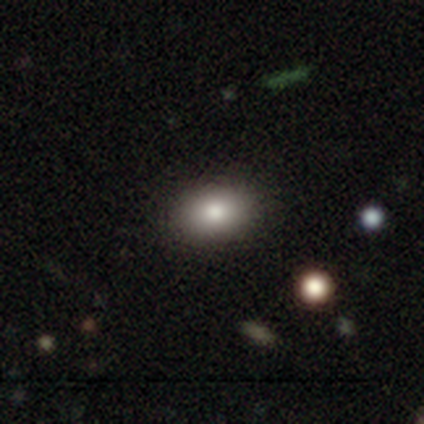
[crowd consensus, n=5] smooth 80%, featured or disk 20%, star or artifact 0%. Down the decision tree: how rounded — round (50%, tied with in between); merging — none (100%).